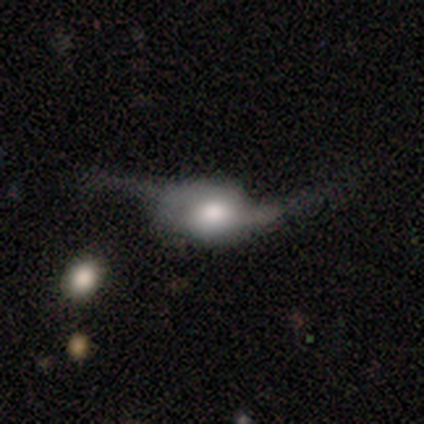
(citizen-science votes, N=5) Smooth or featured: featured or disk — 100%
Edge-on disk: no — 80% (yes — 20%)
Bar: weak — 50% (tied with no — 50%)
Spiral arms: yes — 75% (no — 25%)
Spiral winding: loose — 100%
Spiral arm count: 2 — 67% (1 — 33%)
Bulge size: moderate — 50% (tied with small — 50%)
Merging: minor disturbance — 40% (tied with major disturbance — 40%)